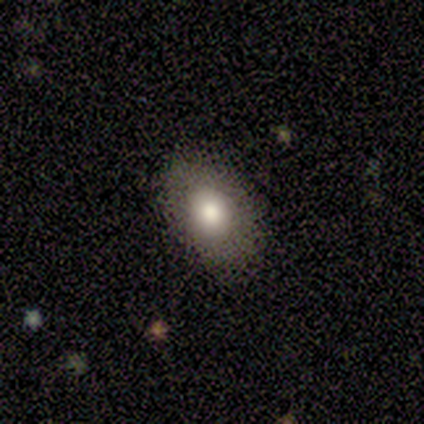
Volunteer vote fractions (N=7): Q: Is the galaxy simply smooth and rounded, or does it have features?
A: smooth — 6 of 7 (86%).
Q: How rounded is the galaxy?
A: in between — 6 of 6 (100%).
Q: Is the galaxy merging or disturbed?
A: none — 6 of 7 (86%).